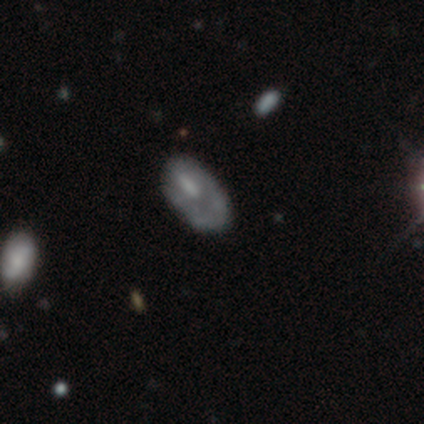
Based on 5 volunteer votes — Smooth or featured?
  - smooth: 60% *
  - featured or disk: 40%
  - star or artifact: 0%
How rounded?
  - in between: 67% *
  - round: 33%
  - cigar-shaped: 0%
Merging?
  - none: 40% * (tied)
  - major disturbance: 40% * (tied)
  - minor disturbance: 20%
  - merger: 0%